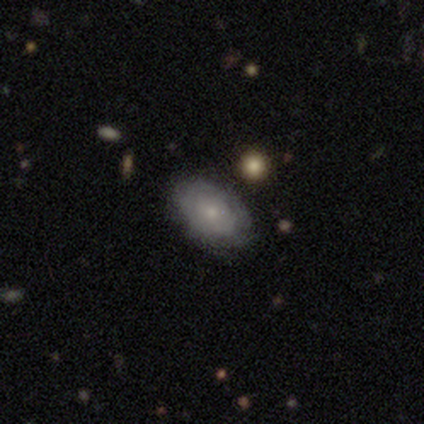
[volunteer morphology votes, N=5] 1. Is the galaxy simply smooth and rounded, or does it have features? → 60% smooth, 40% featured or disk, 0% star or artifact.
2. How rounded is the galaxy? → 100% in between, 0% round, 0% cigar-shaped.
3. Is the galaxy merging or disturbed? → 80% none, 20% minor disturbance, 0% major disturbance, 0% merger.